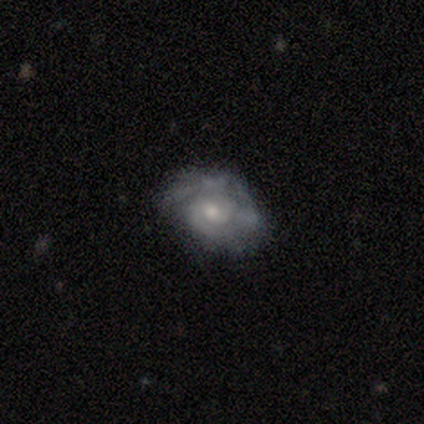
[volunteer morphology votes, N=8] Smooth or featured? featured or disk (88%)
Edge-on disk? no (86%)
Bar? no (67%)
Spiral arms? yes (67%)
Spiral winding? loose (50%)
Spiral arm count? 1 (25%, tied with 2, 3 and can't tell)
Bulge size? moderate (83%)
Merging? minor disturbance (50%)